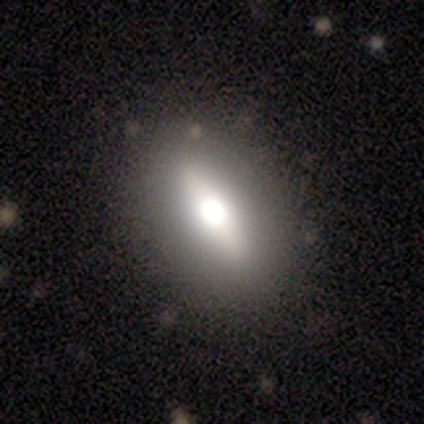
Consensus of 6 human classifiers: smooth-or-featured: smooth: 67% | featured or disk: 33% | star or artifact: 0%
  how-rounded: in between: 100% | round: 0% | cigar-shaped: 0%
  merging: none: 100% | minor disturbance: 0% | major disturbance: 0% | merger: 0%